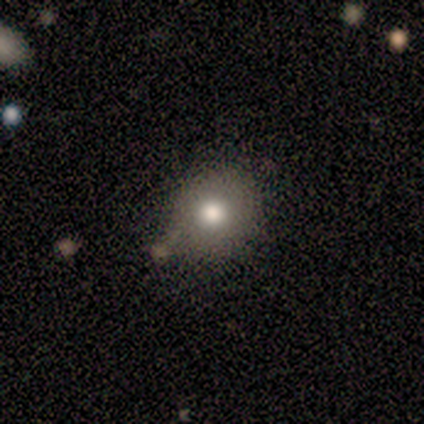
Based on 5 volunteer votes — Smooth or featured: smooth — 100%
How rounded: round — 100%
Merging: none — 60% (minor disturbance — 20%)